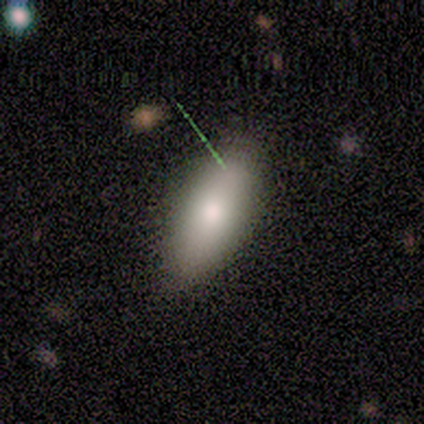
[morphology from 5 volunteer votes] type=smooth (60%); roundness=in between (100%); merging=minor disturbance (50%).